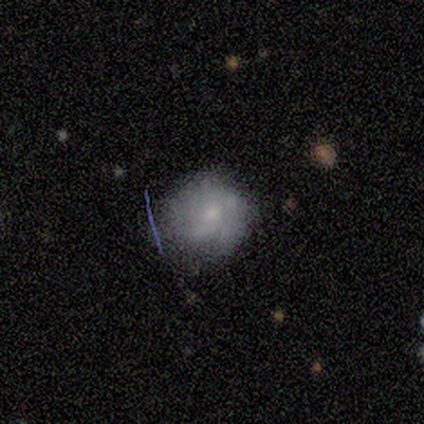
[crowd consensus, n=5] Smooth or featured? 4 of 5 (80%) said smooth. How rounded? 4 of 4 (100%) said round. Merging? 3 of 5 (60%) said none.